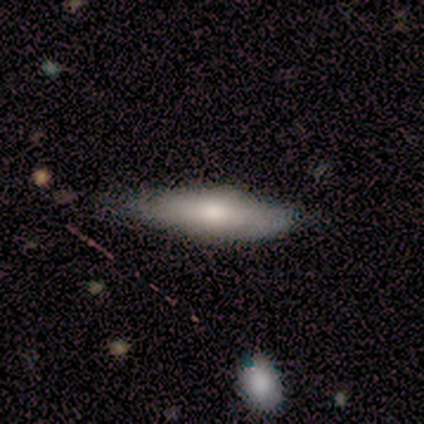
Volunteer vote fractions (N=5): This is clearly a smooth galaxy (80%). How rounded: clearly cigar-shaped (100%). Merging: likely none (75%).